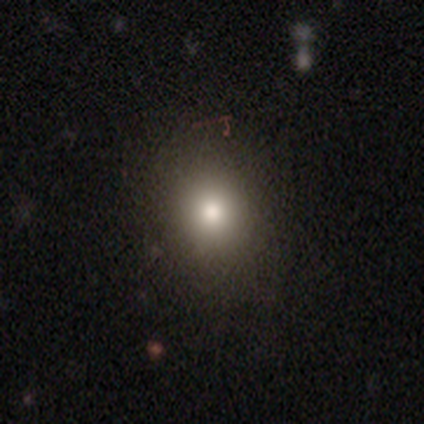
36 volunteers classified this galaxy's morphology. type=smooth (72%); roundness=round (73%); merging=none (93%).